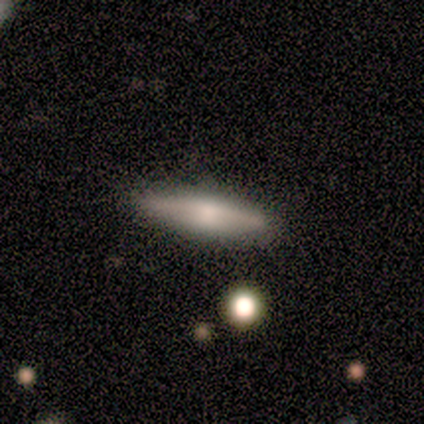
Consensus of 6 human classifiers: A smooth galaxy with no disk features (67%) that is cigar-shaped (75%). Merging: none (100%).